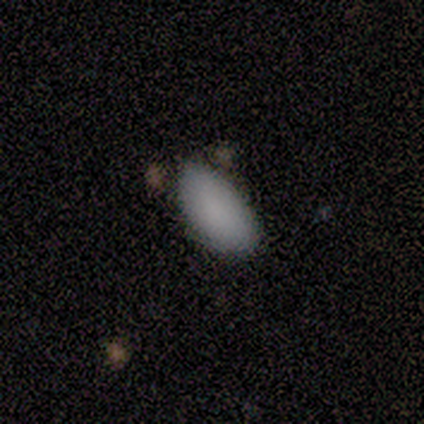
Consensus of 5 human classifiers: smooth-or-featured: smooth: 100% | featured or disk: 0% | star or artifact: 0%
  how-rounded: in between: 100% | round: 0% | cigar-shaped: 0%
  merging: none: 60% | minor disturbance: 20% | merger: 20% | major disturbance: 0%